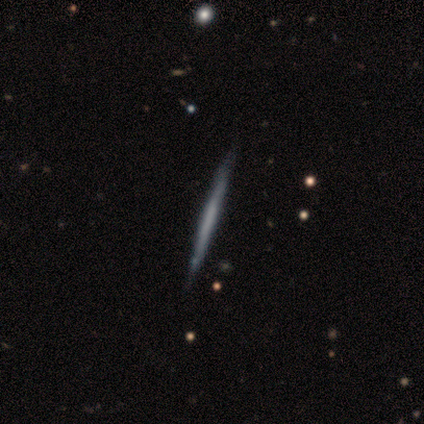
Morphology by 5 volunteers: Smooth or featured?
  - featured or disk: 100% *
  - smooth: 0%
  - star or artifact: 0%
Edge-on disk?
  - yes: 100% *
  - no: 0%
Edge-on bulge?
  - none: 80% *
  - boxy: 20%
  - rounded: 0%
Merging?
  - none: 80% *
  - minor disturbance: 20%
  - major disturbance: 0%
  - merger: 0%